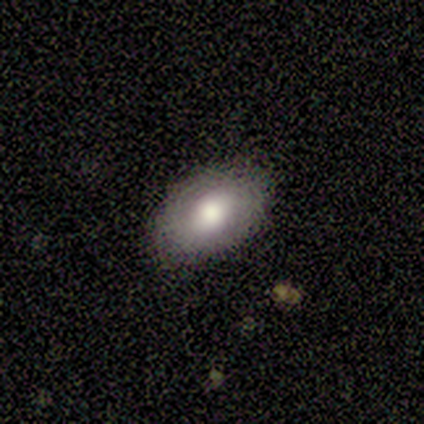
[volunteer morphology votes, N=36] A smooth galaxy with no disk features (69%) that is in between round and cigar-shaped (92%).

Vote fractions:
- Smooth or featured? smooth: 69% / featured or disk: 22% / star or artifact: 8%
- How rounded? in between: 92% / round: 8% / cigar-shaped: 0%
- Merging? none: 82% / minor disturbance: 15% / major disturbance: 3% / merger: 0%